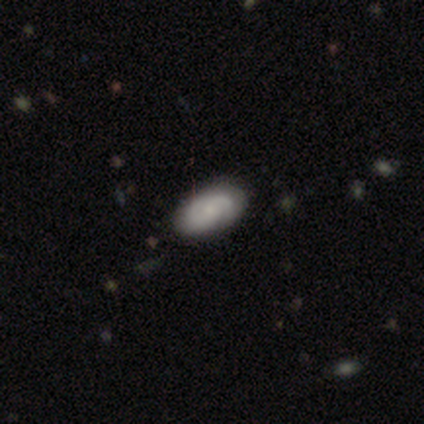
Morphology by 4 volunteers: Overall: smooth (50%, tied with featured or disk). How rounded: in between (100%). Merging: none (100%).